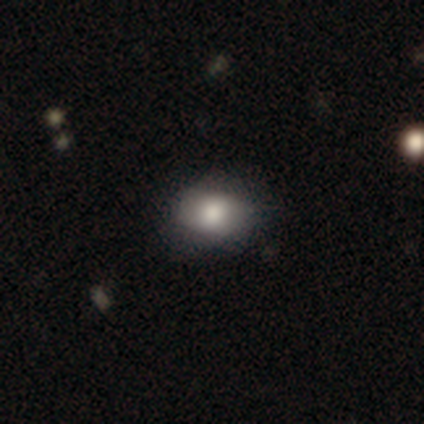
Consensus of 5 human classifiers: Volunteers were most divided on "how rounded": in between: 75%, round: 25%, cigar-shaped: 0%. More confident: merging — none (100%); smooth or featured — smooth (80%).